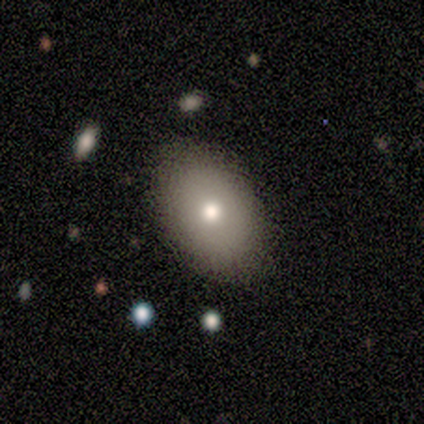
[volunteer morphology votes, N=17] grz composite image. It shows a smooth galaxy with no disk features (53%) that is in between round and cigar-shaped (100%). Merging: none (87%).